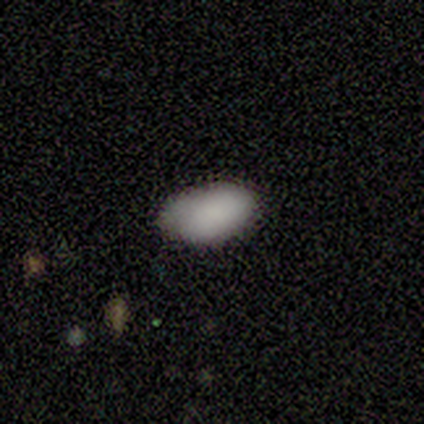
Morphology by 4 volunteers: type=smooth (100%); roundness=in between (100%); merging=none (75%).